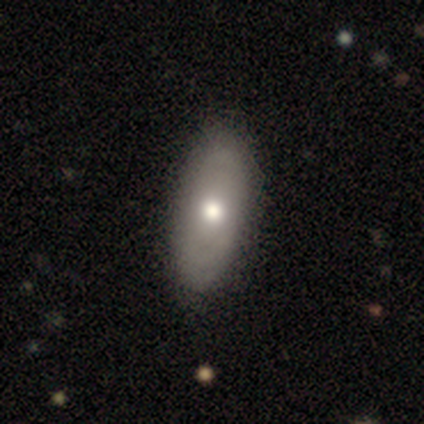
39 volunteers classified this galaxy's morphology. This is likely a smooth galaxy (62%). How rounded: clearly in between (92%). Merging: possibly none (59%).